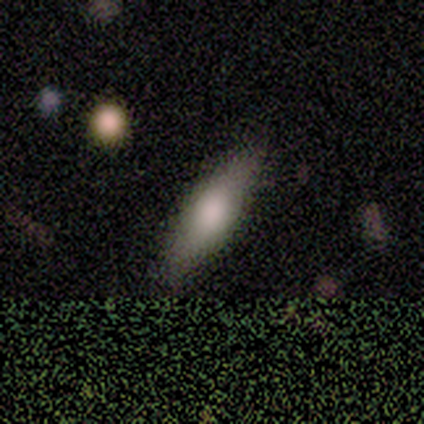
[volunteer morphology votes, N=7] This is likely a smooth galaxy (71%). How rounded: clearly cigar-shaped (80%). Merging: clearly none (86%).